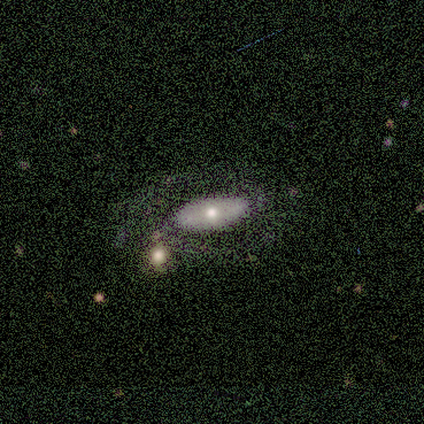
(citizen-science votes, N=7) smooth-or-featured: smooth: 43% | featured or disk: 29% | star or artifact: 29%
  how-rounded: in between: 67% | cigar-shaped: 33% | round: 0%
  merging: none: 60% | major disturbance: 20% | merger: 20% | minor disturbance: 0%